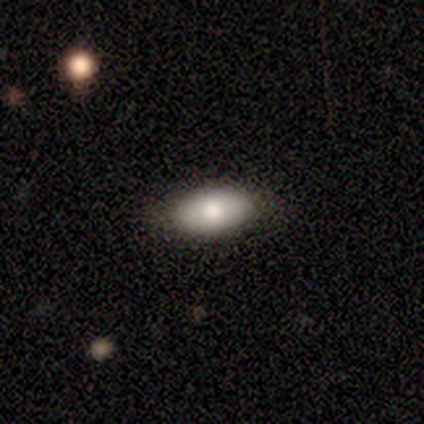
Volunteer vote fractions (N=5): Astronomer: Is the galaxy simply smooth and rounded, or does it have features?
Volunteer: smooth — 80%.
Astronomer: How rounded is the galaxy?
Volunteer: in between — 100%.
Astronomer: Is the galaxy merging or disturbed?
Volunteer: none — 80%.